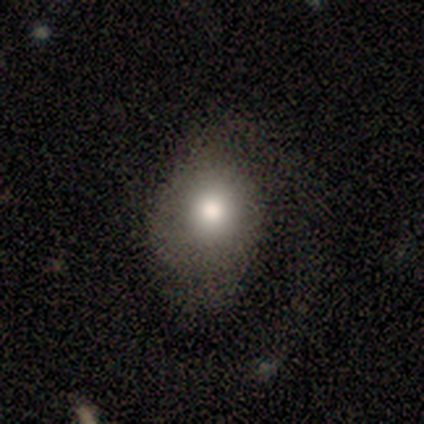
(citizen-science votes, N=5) This appears to be a smooth galaxy with no disk features (80%) that is round (75%). Merging: none (40%, tied with major disturbance).